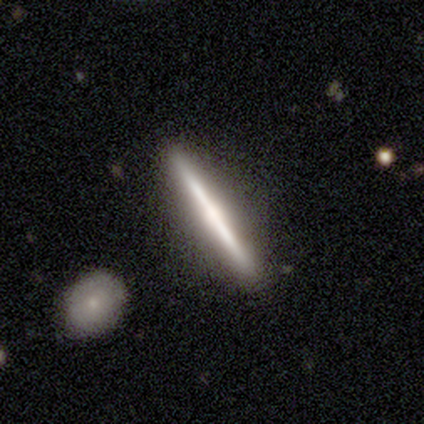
Q: Smooth or featured?
A: smooth (60%); runner-up: featured or disk (40%)
Q: How rounded?
A: cigar-shaped (100%)
Q: Merging?
A: none (100%)